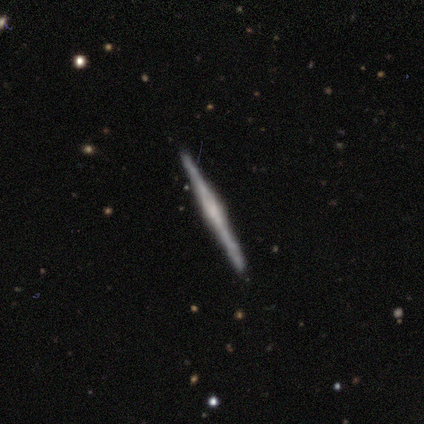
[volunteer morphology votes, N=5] type=featured or disk (100%); edge-on=yes (100%); edge-on bulge=rounded (60%); merging=none (100%).